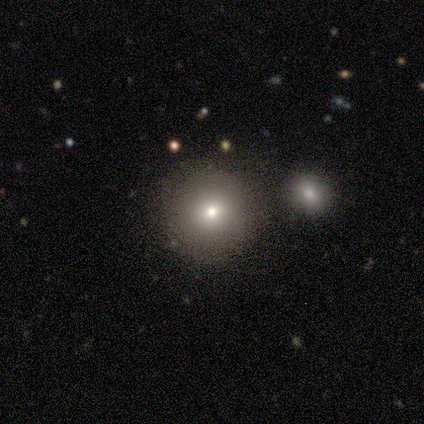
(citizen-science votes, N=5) A smooth galaxy with no disk features (80%) that is round (100%).

Vote fractions:
- Smooth or featured? smooth: 80% / star or artifact: 20% / featured or disk: 0%
- How rounded? round: 100% / in between: 0% / cigar-shaped: 0%
- Merging? none: 75% / minor disturbance: 25% / major disturbance: 0% / merger: 0%